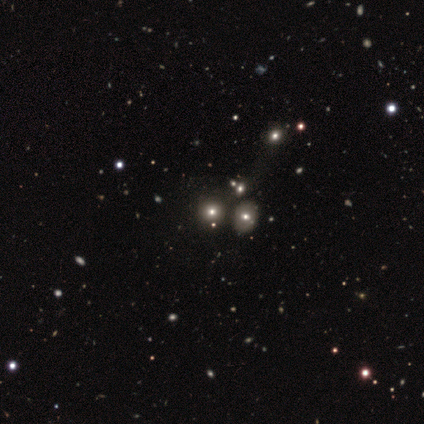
A smooth galaxy with no disk features (60%) that is round (100%). Merging: none (67%).